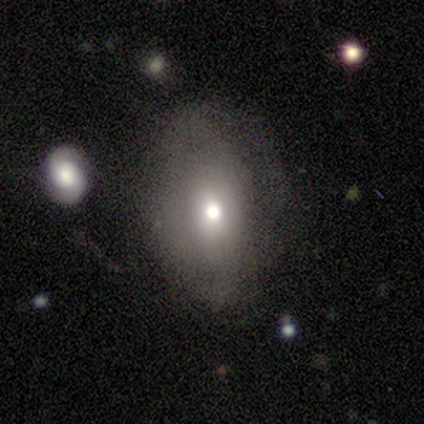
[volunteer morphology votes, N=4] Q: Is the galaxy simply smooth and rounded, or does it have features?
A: featured or disk — 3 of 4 (75%).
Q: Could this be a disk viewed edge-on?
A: no — 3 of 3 (100%).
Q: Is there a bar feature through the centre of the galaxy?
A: no — 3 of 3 (100%).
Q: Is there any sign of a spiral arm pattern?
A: yes — 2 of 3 (67%).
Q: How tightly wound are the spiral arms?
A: tight — 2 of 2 (100%).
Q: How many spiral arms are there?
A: can't tell — 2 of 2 (100%).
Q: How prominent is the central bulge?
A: large — 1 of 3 (33%, tied with moderate and small).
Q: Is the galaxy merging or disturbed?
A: minor disturbance — 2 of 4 (50%).